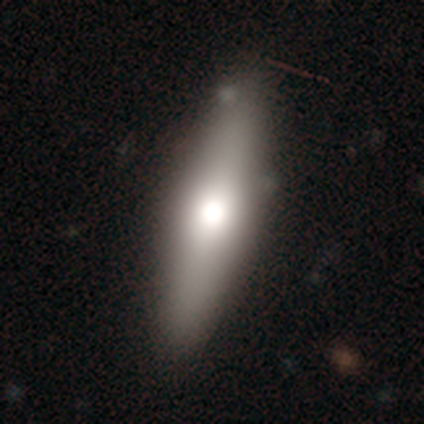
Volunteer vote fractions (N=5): Morphology: type=smooth (80%); roundness=in between (50%, tied with cigar-shaped); merging=none (60%).